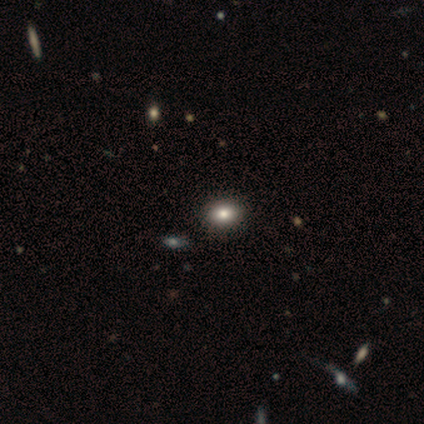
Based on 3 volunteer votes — smooth_or_featured: smooth (p=1.00)
how_rounded: in between (p=1.00)
merging: none (p=1.00)